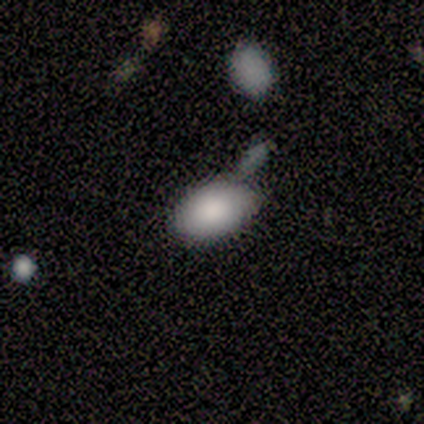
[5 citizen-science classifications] Morphology: type=smooth (80%); roundness=in between (100%); merging=none (60%).